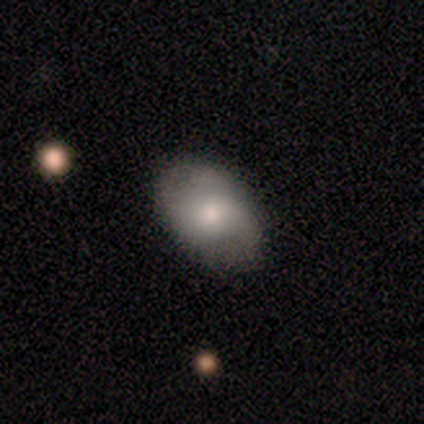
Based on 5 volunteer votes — smooth 60%, featured or disk 40%, star or artifact 0%. Down the decision tree: how rounded — in between (67%); merging — none (80%).